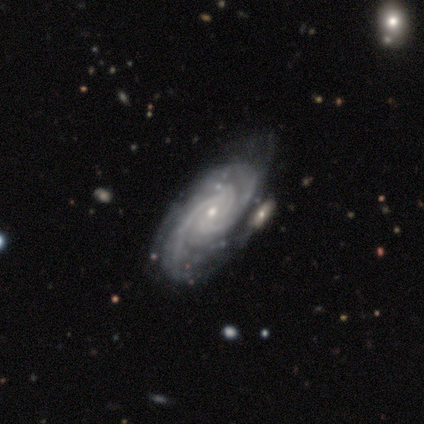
A featured or disk galaxy (80%) with no bar (100%), tight (75%) spiral arms (100%) and a small central bulge (75%).

Vote fractions:
- Smooth or featured? featured or disk: 80% / star or artifact: 20% / smooth: 0%
- Edge-on disk? no: 100% / yes: 0%
- Bar? no: 100% / strong: 0% / weak: 0%
- Spiral arms? yes: 100% / no: 0%
- Spiral winding? tight: 75% / medium: 25% / loose: 0%
- Spiral arm count? can't tell: 75% / 2: 25% / 1: 0% / 3: 0% / 4: 0% / more than 4: 0%
- Bulge size? small: 75% / moderate: 25% / dominant: 0% / large: 0% / none: 0%
- Merging? none: 50% (tied) / merger: 50% (tied) / minor disturbance: 0% / major disturbance: 0%